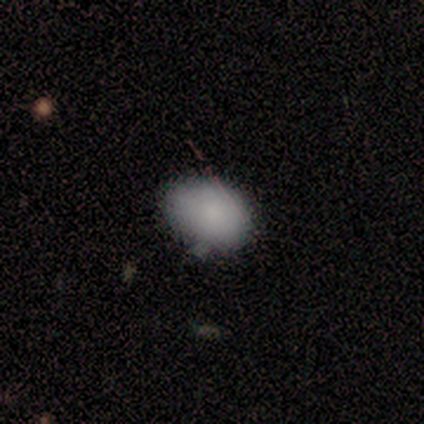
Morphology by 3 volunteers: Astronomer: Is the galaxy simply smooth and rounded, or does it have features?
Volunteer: smooth — 67%.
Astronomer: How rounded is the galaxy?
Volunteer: in between — 100%.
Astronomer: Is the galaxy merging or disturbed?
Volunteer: none — 100%.